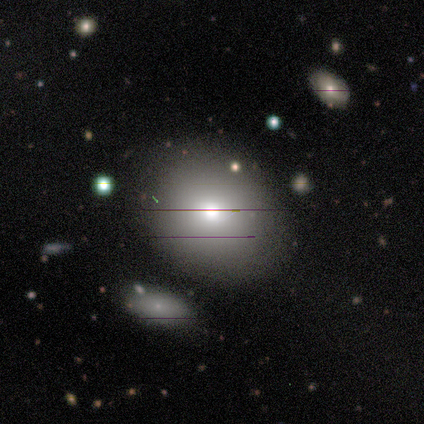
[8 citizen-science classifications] This is likely a smooth galaxy (75%). How rounded: possibly round (50%, tied with in between). Merging: likely none (75%).